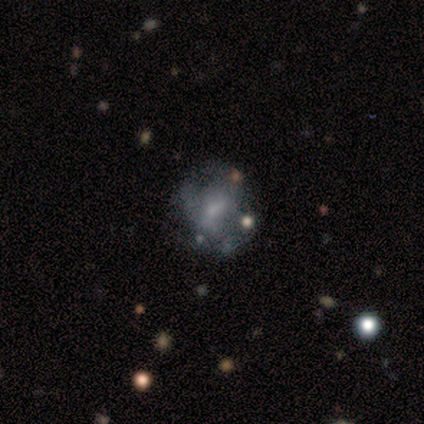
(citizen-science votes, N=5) Smooth or featured?
  - featured or disk: 60% *
  - smooth: 20%
  - star or artifact: 20%
Edge-on disk?
  - no: 100% *
  - yes: 0%
Bar?
  - no: 100% *
  - strong: 0%
  - weak: 0%
Spiral arms?
  - no: 100% *
  - yes: 0%
Bulge size?
  - none: 67% *
  - small: 33%
  - dominant: 0%
  - large: 0%
  - moderate: 0%
Merging?
  - none: 50% *
  - minor disturbance: 25%
  - major disturbance: 25%
  - merger: 0%